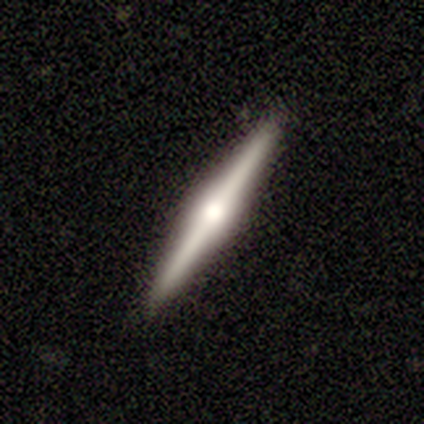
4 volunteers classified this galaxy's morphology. A featured or disk galaxy (75%) viewed edge-on (100%) with a rounded central bulge (100%).

Vote fractions:
- Smooth or featured? featured or disk: 75% / smooth: 25% / star or artifact: 0%
- Edge-on disk? yes: 100% / no: 0%
- Edge-on bulge? rounded: 100% / boxy: 0% / none: 0%
- Merging? none: 75% / minor disturbance: 25% / major disturbance: 0% / merger: 0%